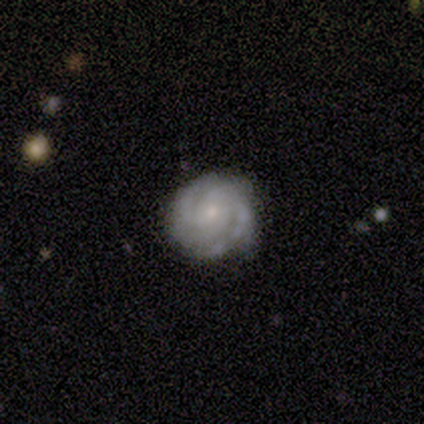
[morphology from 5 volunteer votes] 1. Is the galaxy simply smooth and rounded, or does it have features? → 100% featured or disk, 0% smooth, 0% star or artifact.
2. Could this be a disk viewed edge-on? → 100% no, 0% yes.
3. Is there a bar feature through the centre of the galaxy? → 100% no, 0% strong, 0% weak.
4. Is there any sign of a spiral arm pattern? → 100% yes, 0% no.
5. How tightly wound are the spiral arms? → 60% tight, 40% medium, 0% loose.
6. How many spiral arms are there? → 40% 2 (tied), 40% can't tell (tied), 20% 3, 0% 1, 0% 4, 0% more than 4.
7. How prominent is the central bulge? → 40% moderate (tied), 40% small (tied), 20% none, 0% dominant, 0% large.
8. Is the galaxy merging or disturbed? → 100% none, 0% minor disturbance, 0% major disturbance, 0% merger.